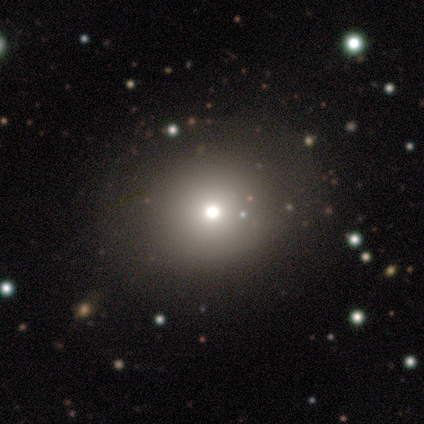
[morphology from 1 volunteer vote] Smooth or featured?
  - star or artifact: 100% *
  - smooth: 0%
  - featured or disk: 0%